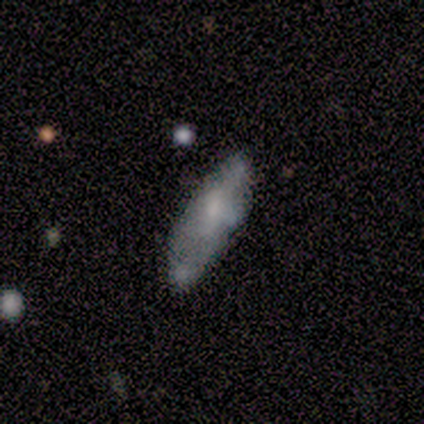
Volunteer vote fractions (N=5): Smooth or featured?
  - featured or disk: 80% *
  - smooth: 20%
  - star or artifact: 0%
Edge-on disk?
  - no: 75% *
  - yes: 25%
Bar?
  - no: 67% *
  - weak: 33%
  - strong: 0%
Spiral arms?
  - no: 100% *
  - yes: 0%
Bulge size?
  - moderate: 33% * (tied)
  - small: 33% * (tied)
  - none: 33% * (tied)
  - dominant: 0%
  - large: 0%
Merging?
  - minor disturbance: 40% *
  - none: 20%
  - major disturbance: 20%
  - merger: 20%